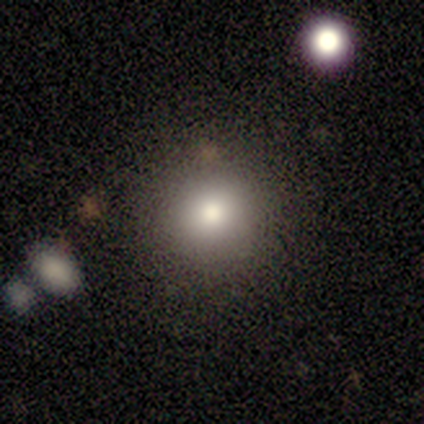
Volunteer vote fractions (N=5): This appears to be a smooth galaxy with no disk features (60%) that is round (100%). Merging: none (80%).